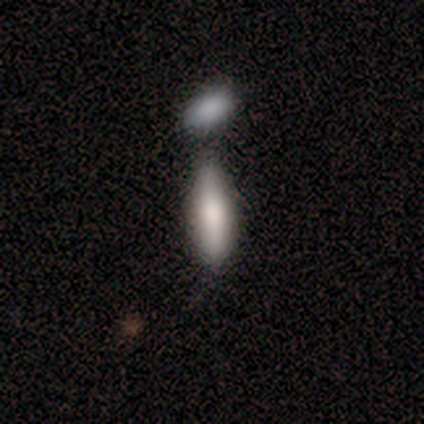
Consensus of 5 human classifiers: A smooth galaxy with no disk features (80%) that is in between round and cigar-shaped (50%, tied with cigar-shaped). Merging: merger (80%).